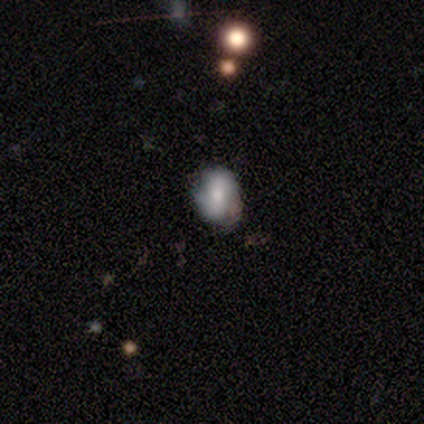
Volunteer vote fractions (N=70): Morphology: type=smooth (59%); roundness=in between (73%); merging=none (68%).